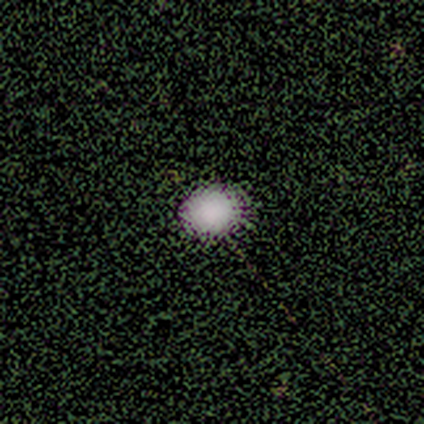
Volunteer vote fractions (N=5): Smooth or featured: star or artifact — 60% (smooth — 40%)